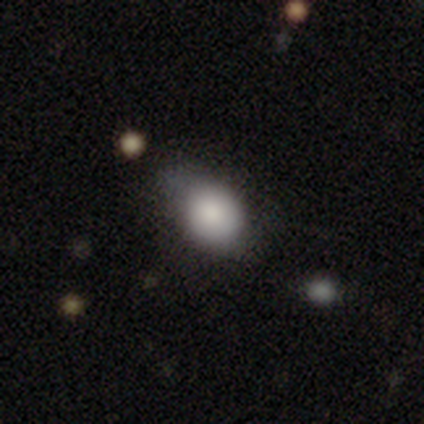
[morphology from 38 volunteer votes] smooth 87%, star or artifact 8%, featured or disk 5%. Down the decision tree: how rounded — in between (58%); merging — none (49%).